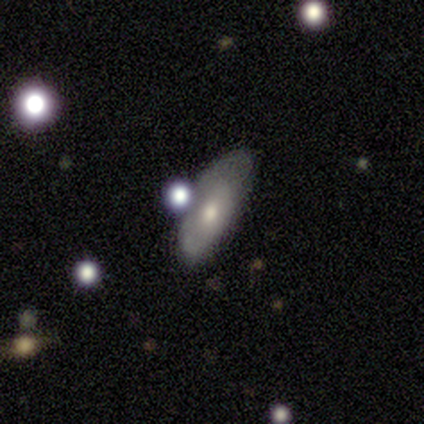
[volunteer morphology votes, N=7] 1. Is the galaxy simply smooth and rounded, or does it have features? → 86% smooth, 14% featured or disk, 0% star or artifact.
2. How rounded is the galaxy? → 100% in between, 0% round, 0% cigar-shaped.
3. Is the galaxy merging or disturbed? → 71% none, 29% minor disturbance, 0% major disturbance, 0% merger.